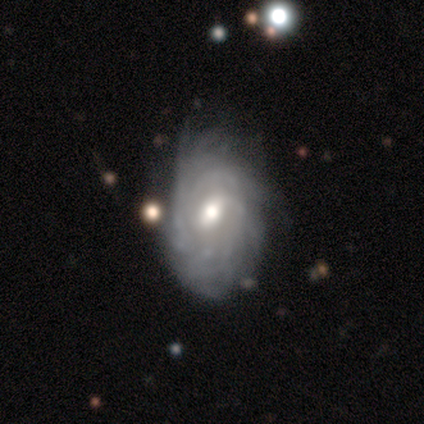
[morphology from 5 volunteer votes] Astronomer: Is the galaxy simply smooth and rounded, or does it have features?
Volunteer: featured or disk — 80%.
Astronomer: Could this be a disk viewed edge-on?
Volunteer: no — 75%.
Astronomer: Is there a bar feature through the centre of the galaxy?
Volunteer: weak — 100%.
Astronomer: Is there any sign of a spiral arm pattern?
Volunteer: yes — 100%.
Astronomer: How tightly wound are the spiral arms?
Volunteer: tight — 33%, tied with medium and loose at 33%.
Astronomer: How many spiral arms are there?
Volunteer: can't tell — 67%.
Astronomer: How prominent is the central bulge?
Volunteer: moderate — 67%.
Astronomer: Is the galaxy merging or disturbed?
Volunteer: minor disturbance — 60%.